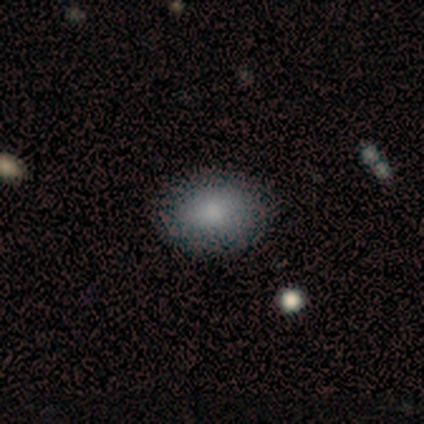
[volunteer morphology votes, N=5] smooth-or-featured: smooth: 100% | featured or disk: 0% | star or artifact: 0%
  how-rounded: in between: 80% | cigar-shaped: 20% | round: 0%
  merging: none: 80% | minor disturbance: 20% | major disturbance: 0% | merger: 0%